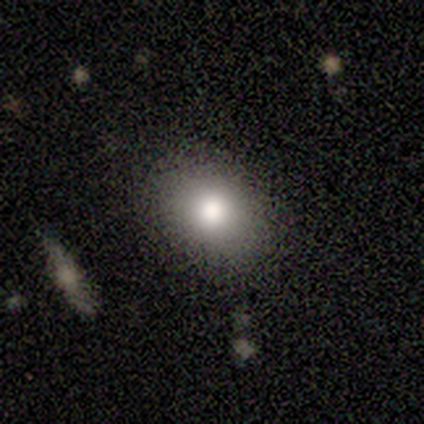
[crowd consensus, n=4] smooth 100%, featured or disk 0%, star or artifact 0%. Down the decision tree: how rounded — round (100%); merging — none (100%).